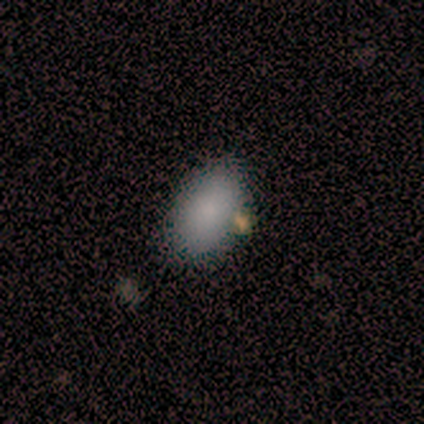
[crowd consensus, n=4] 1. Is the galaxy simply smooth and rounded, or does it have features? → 100% smooth, 0% featured or disk, 0% star or artifact.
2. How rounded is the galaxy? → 100% in between, 0% round, 0% cigar-shaped.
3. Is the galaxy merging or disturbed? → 50% none, 25% major disturbance, 25% merger, 0% minor disturbance.